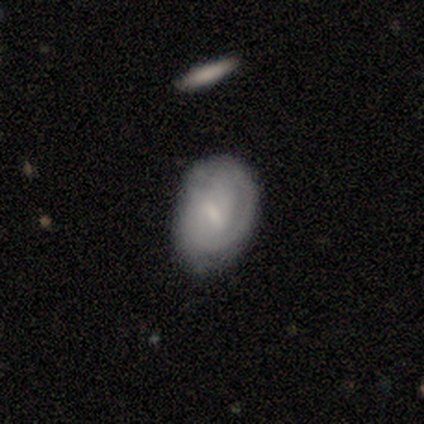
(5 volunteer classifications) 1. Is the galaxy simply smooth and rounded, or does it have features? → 80% featured or disk, 20% smooth, 0% star or artifact.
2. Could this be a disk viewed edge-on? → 100% no, 0% yes.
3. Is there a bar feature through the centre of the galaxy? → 50% weak, 25% strong, 25% no.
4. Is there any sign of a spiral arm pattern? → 100% yes, 0% no.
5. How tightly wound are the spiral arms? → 50% tight, 25% medium, 25% loose.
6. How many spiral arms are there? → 75% 2, 25% 1, 0% 3, 0% 4, 0% more than 4, 0% can't tell.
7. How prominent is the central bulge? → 75% small, 25% moderate, 0% dominant, 0% large, 0% none.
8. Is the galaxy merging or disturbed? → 80% none, 20% major disturbance, 0% minor disturbance, 0% merger.